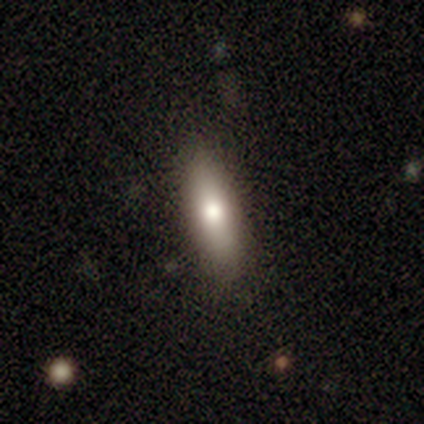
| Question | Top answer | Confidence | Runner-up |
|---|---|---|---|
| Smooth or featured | smooth | 84% | featured or disk (13%) |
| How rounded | cigar-shaped | 55% | in between (45%) |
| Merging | none | 39% | minor disturbance (11%) |